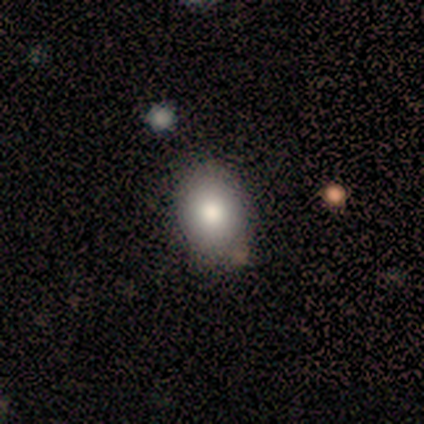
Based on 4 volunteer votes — A smooth galaxy with no disk features (100%) that is round (50%, tied with in between). Merging: none (100%).